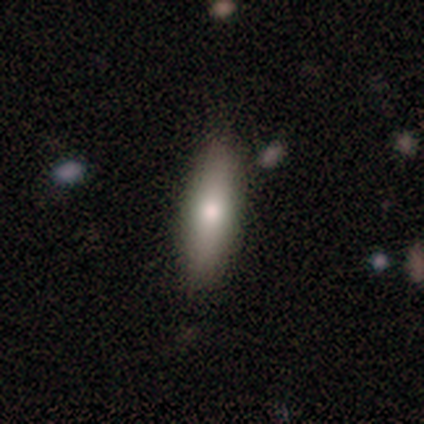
Overall: smooth (75%). How rounded: cigar-shaped (59%; in between 41%). Merging: none (82%).